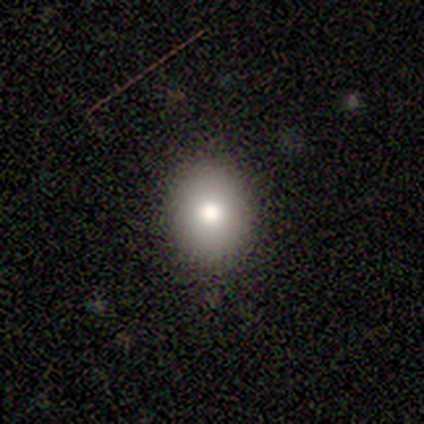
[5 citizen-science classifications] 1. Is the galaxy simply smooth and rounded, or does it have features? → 100% smooth, 0% featured or disk, 0% star or artifact.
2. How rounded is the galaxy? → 60% round, 40% in between, 0% cigar-shaped.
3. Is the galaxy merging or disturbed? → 80% none, 20% minor disturbance, 0% major disturbance, 0% merger.